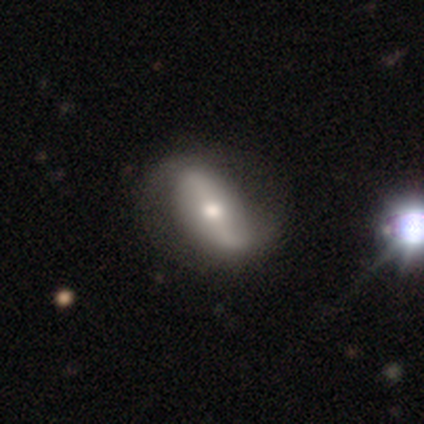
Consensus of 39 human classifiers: featured or disk 77%, smooth 18%, star or artifact 5%. Down the decision tree: edge-on disk — no (90%); bar — strong (70%); spiral arms — yes (85%); spiral arm count — 2 (100%); spiral winding — loose (91%); bulge size — moderate (67%); merging — none (59%).